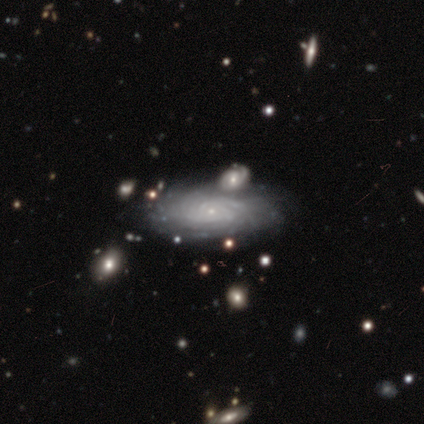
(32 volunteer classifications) This appears to be a featured or disk galaxy (91%) with no bar (96%), tight (84%) spiral arms (96%) and a small central bulge (88%). Merging: merger (34%).